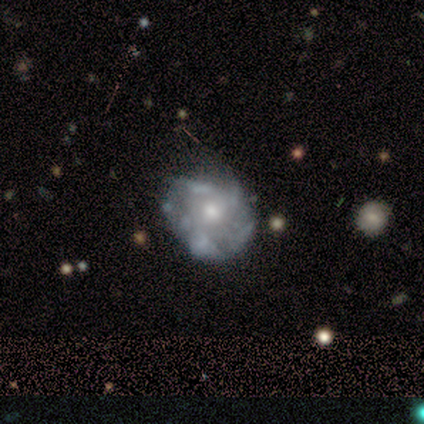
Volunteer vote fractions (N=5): featured or disk 80%, smooth 20%, star or artifact 0%. Down the decision tree: edge-on disk — no (100%); bar — no (100%); spiral arms — yes (50%, tied with no); spiral arm count — can't tell (100%); spiral winding — tight (50%, tied with medium); bulge size — moderate (100%); merging — none (40%).